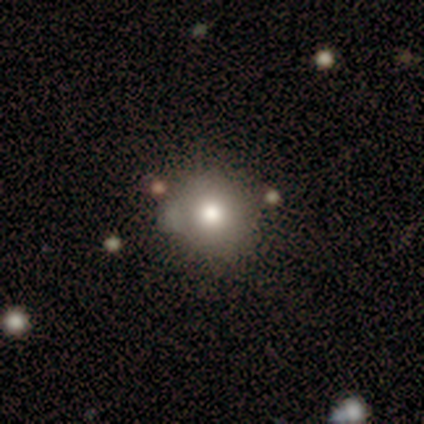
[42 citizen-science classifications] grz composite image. It shows a smooth galaxy with no disk features (76%) that is round (84%). Merging: none (68%).